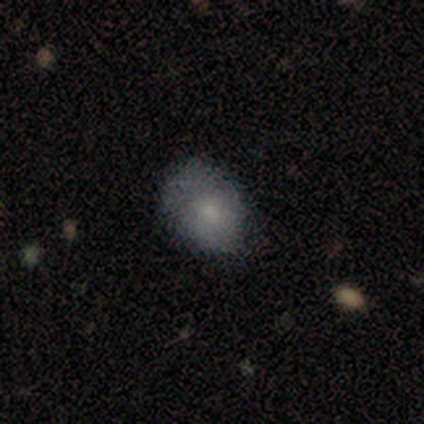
Morphology: type=smooth (60%); roundness=round (67%); merging=none (100%).